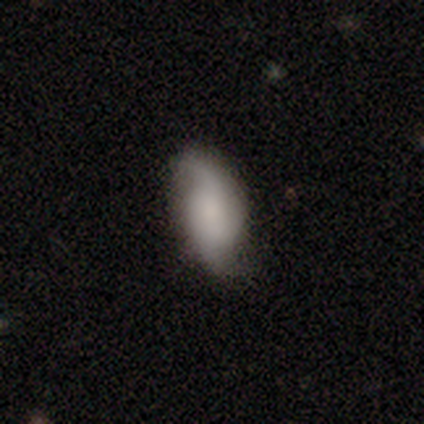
Overall: featured or disk (80%). Edge-on disk: no (100%). Bar: no (75%). Spiral arms: yes (100%). Spiral arm count: 2 (100%). Spiral winding: loose (75%). Bulge size: small (50%, tied with none). Merging: none (100%).